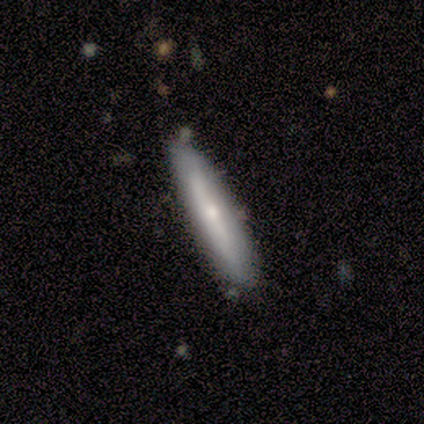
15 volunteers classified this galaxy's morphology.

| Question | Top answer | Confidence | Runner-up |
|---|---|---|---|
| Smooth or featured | smooth | 67% | featured or disk (33%) |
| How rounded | cigar-shaped | 90% | in between (10%) |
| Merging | none | 73% | minor disturbance (27%) |